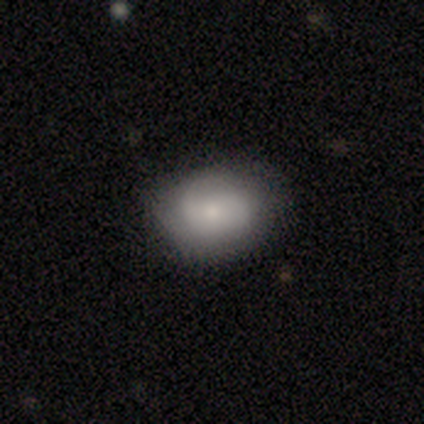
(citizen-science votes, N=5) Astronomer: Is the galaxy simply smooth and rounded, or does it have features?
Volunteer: featured or disk — 60% (runner-up: smooth, 40%).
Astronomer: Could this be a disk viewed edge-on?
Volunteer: no — 100%.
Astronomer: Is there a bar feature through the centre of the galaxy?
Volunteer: strong — 33%, tied with weak and no at 33%.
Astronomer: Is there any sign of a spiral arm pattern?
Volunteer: yes — 100%.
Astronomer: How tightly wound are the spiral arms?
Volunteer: loose — 67%.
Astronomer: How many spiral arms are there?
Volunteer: can't tell — 67%.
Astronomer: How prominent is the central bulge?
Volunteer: small — 67%.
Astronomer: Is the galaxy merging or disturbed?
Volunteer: none — 100%.